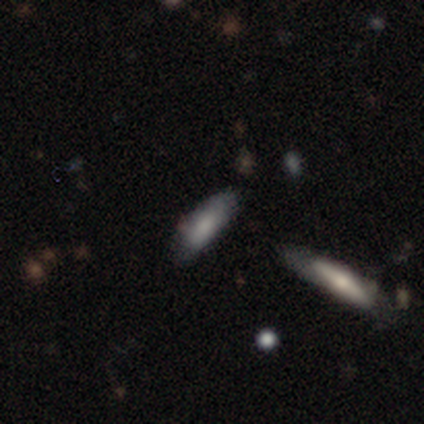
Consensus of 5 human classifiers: Smooth or featured? smooth (80%)
How rounded? cigar-shaped (75%)
Merging? none (80%)